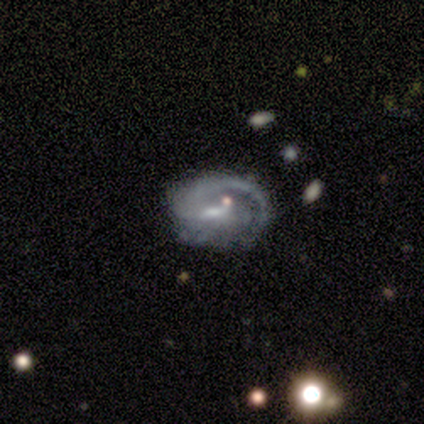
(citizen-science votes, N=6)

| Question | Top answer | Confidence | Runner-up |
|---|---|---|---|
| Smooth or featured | featured or disk | 100% | — |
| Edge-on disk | no | 100% | — |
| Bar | strong | 33% | tied: weak (33%), no (33%) |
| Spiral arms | yes | 83% | no (17%) |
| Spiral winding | medium | 80% | tight (20%) |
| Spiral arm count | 1 | 80% | 2 (20%) |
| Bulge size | small | 67% | moderate (33%) |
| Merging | none | 50% | major disturbance (33%) |